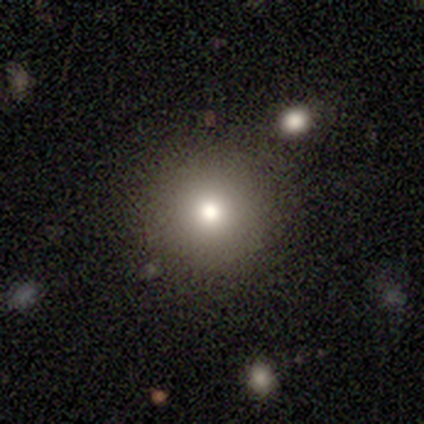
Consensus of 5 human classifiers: Volunteers were most divided on "smooth or featured": smooth: 80%, featured or disk: 20%, star or artifact: 0%. More confident: how rounded — round (100%); merging — none (100%).